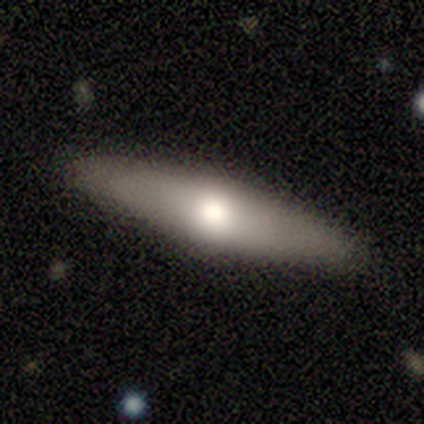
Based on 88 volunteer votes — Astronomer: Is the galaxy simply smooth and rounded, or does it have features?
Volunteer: smooth — 49% (runner-up: featured or disk, 44%).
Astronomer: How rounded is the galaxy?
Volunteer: cigar-shaped — 77%.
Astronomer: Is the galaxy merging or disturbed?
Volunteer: none — 89%.